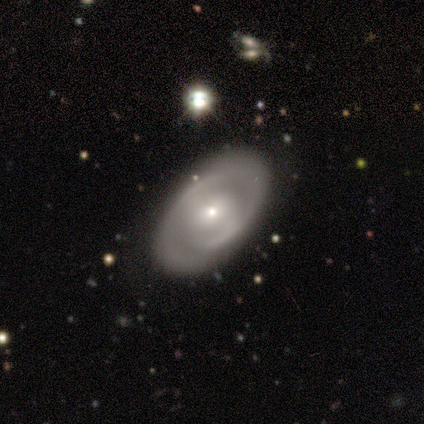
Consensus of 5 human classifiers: smooth-or-featured: featured or disk: 100% | smooth: 0% | star or artifact: 0%
  disk-edge-on: no: 100% | yes: 0%
    bar: no: 100% | strong: 0% | weak: 0%
    has-spiral-arms: yes: 60% | no: 40%
      spiral-winding: medium: 67% | tight: 33% | loose: 0%
      spiral-arm-count: can't tell: 67% | 1: 33% | 2: 0% | 3: 0% | 4: 0% | more than 4: 0%
    bulge-size: small: 60% | moderate: 40% | dominant: 0% | large: 0% | none: 0%
  merging: none: 100% | minor disturbance: 0% | major disturbance: 0% | merger: 0%